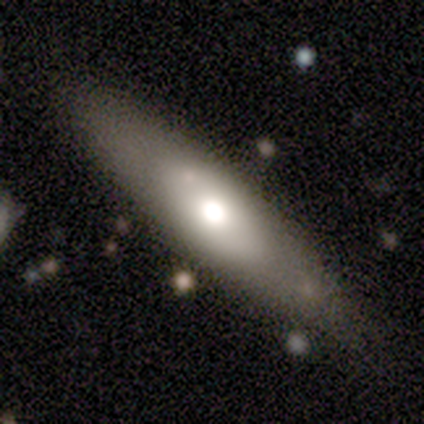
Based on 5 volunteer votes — smooth-or-featured: featured or disk: 80% | smooth: 20% | star or artifact: 0%
  disk-edge-on: no: 75% | yes: 25%
    bar: no: 100% | strong: 0% | weak: 0%
    has-spiral-arms: no: 100% | yes: 0%
    bulge-size: dominant: 33% (tied) | large: 33% (tied) | moderate: 33% (tied) | small: 0% | none: 0%
  merging: none: 100% | minor disturbance: 0% | major disturbance: 0% | merger: 0%